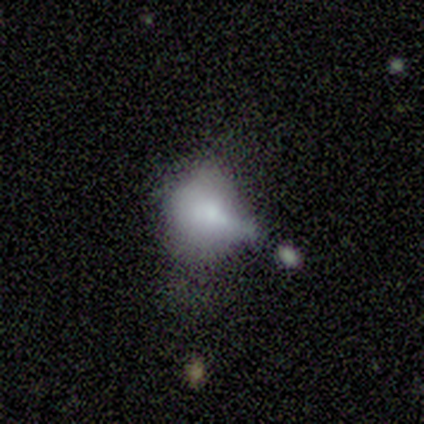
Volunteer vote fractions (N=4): Overall: smooth (50%, tied with featured or disk). How rounded: round (50%, tied with in between). Merging: merger (50%; minor disturbance 25%).